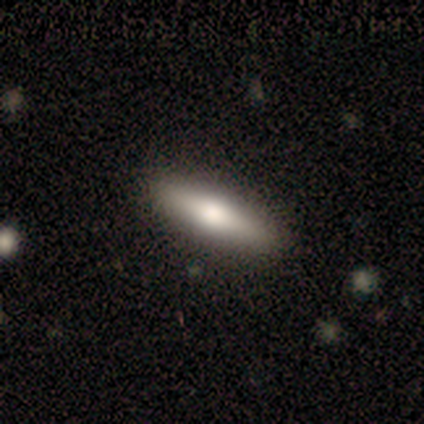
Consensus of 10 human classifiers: Morphology: type=smooth (60%); roundness=cigar-shaped (67%); merging=none (90%).